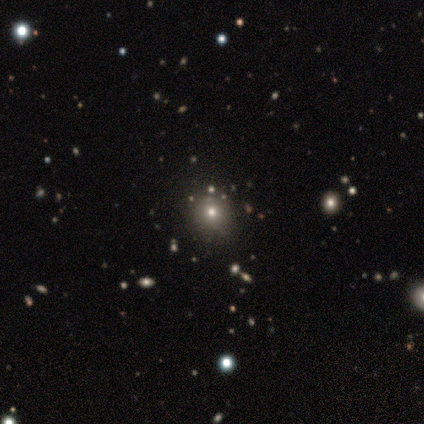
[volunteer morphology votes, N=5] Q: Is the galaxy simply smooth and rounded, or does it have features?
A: smooth — 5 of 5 (100%).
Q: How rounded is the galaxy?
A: round — 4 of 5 (80%).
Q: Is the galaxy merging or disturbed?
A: none — 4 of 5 (80%).